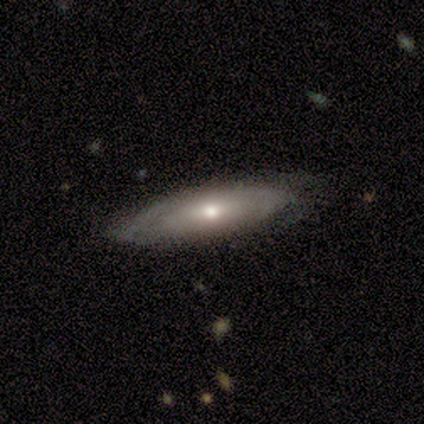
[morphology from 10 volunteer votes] This appears to be a featured or disk galaxy (90%) with no bar (86%), tight (60%) spiral arms (71%) and a moderate central bulge (71%). Merging: none (60%).